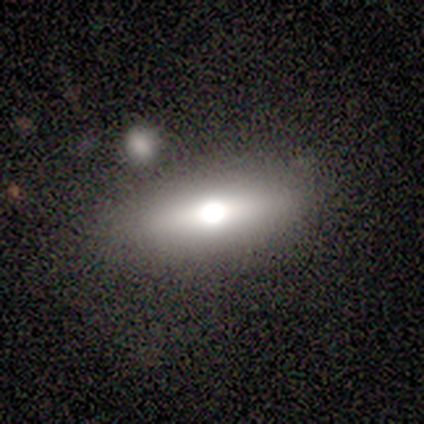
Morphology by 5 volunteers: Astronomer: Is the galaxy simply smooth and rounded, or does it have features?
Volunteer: smooth — 80%.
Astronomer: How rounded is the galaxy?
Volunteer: in between — 75%.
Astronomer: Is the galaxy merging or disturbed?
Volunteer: none — 80%.